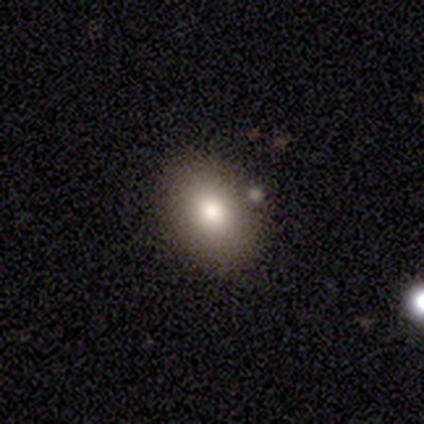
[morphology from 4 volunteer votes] A smooth galaxy with no disk features (100%) that is round (50%, tied with in between).

Vote fractions:
- Smooth or featured? smooth: 100% / featured or disk: 0% / star or artifact: 0%
- How rounded? round: 50% (tied) / in between: 50% (tied) / cigar-shaped: 0%
- Merging? none: 100% / minor disturbance: 0% / major disturbance: 0% / merger: 0%